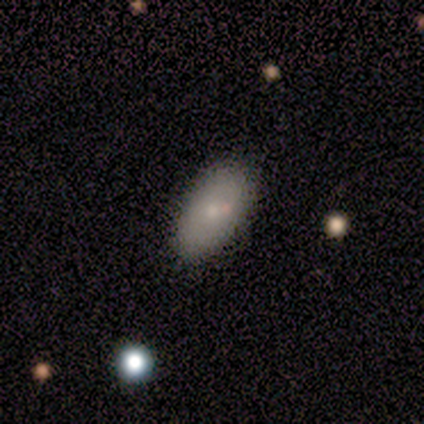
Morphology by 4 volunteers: This appears to be a smooth galaxy with no disk features (100%) that is in between round and cigar-shaped (100%). Merging: none (100%).